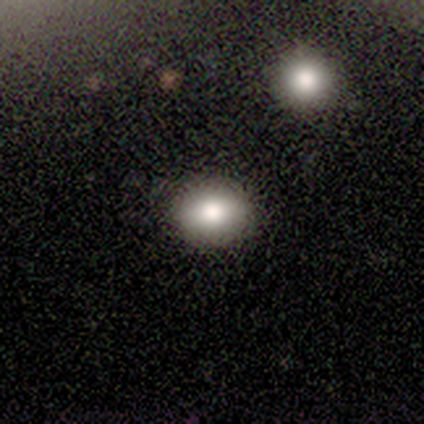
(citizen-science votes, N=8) Volunteers were most divided on "how rounded": round: 57%, in between: 43%, cigar-shaped: 0%. More confident: merging — none (100%); smooth or featured — smooth (88%).